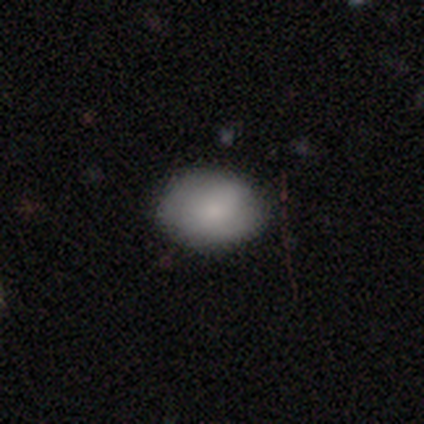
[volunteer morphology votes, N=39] This is clearly a smooth galaxy (85%). How rounded: clearly in between (91%). Merging: clearly none (90%).